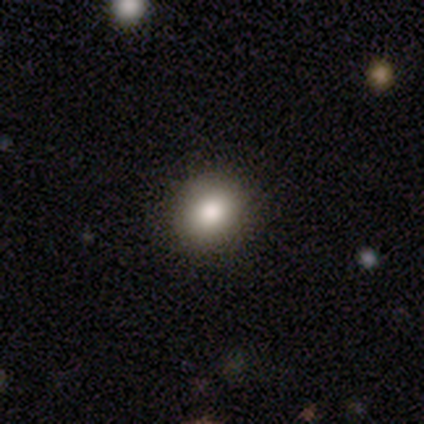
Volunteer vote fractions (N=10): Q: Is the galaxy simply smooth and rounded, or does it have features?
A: smooth — 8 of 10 (80%).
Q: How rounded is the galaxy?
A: round — 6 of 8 (75%).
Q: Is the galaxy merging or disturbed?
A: none — 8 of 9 (89%).